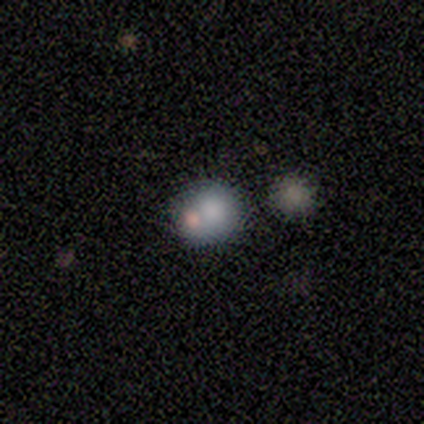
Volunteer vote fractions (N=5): Smooth or featured? smooth (80%)
How rounded? round (75%)
Merging? none (75%)